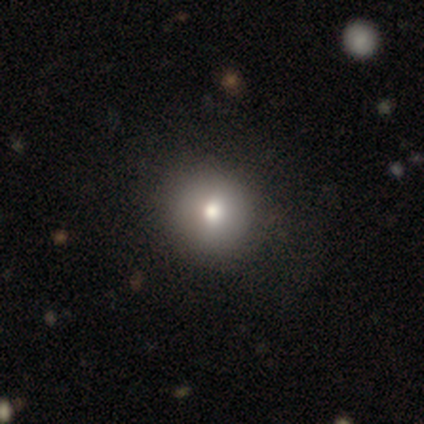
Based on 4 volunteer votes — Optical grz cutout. It shows a smooth galaxy with no disk features (75%) that is round (100%). Merging: none (100%).